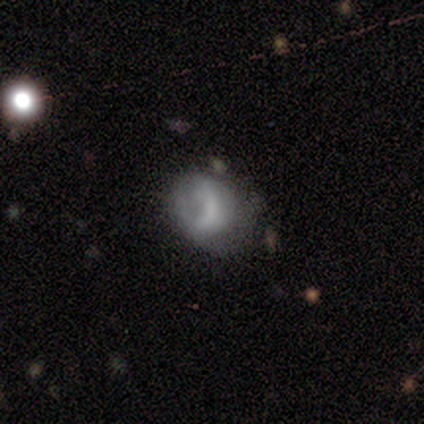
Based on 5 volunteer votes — Overall: smooth (60%; featured or disk 40%). How rounded: round (100%). Merging: none (80%).